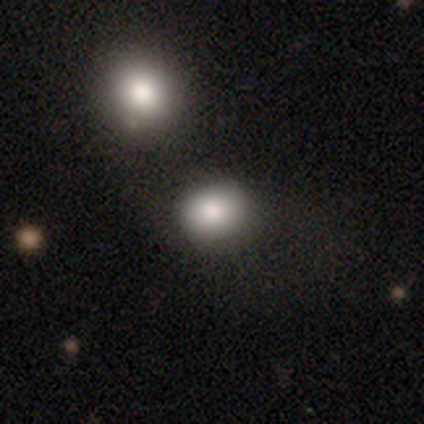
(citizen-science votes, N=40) smooth 78%, star or artifact 20%, featured or disk 2%. Down the decision tree: how rounded — in between (55%); merging — merger (31%).